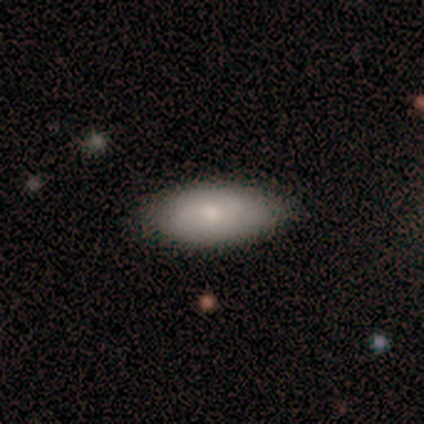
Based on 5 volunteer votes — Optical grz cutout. It shows a smooth galaxy with no disk features (80%) that is in between round and cigar-shaped (75%). Merging: none (75%).